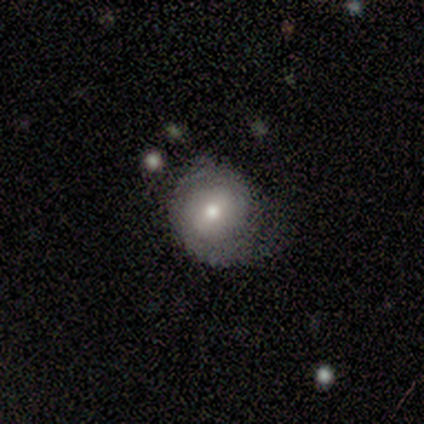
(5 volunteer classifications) Smooth or featured: smooth — 60% (featured or disk — 40%)
How rounded: round — 100%
Merging: none — 60% (minor disturbance — 40%)